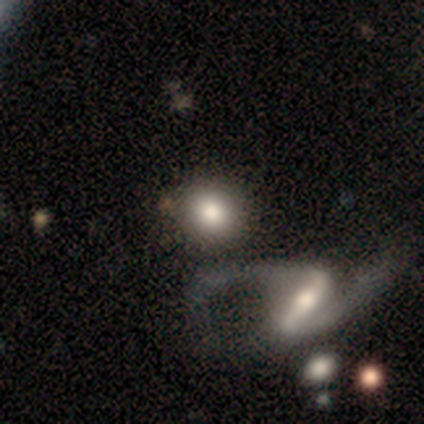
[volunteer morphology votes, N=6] Smooth or featured? 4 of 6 (67%) said smooth. How rounded? 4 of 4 (100%) said round. Merging? 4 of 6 (67%) said none.